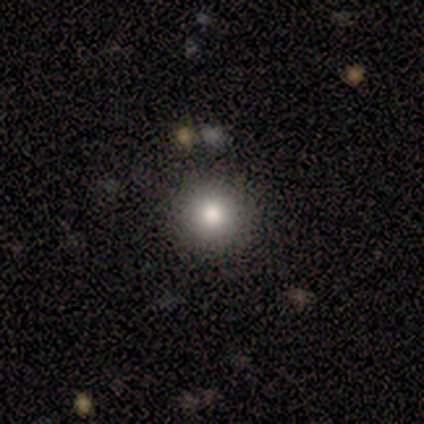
A smooth galaxy with no disk features (83%) that is round (80%).

Vote fractions:
- Smooth or featured? smooth: 83% / star or artifact: 17% / featured or disk: 0%
- How rounded? round: 80% / in between: 20% / cigar-shaped: 0%
- Merging? none: 100% / minor disturbance: 0% / major disturbance: 0% / merger: 0%